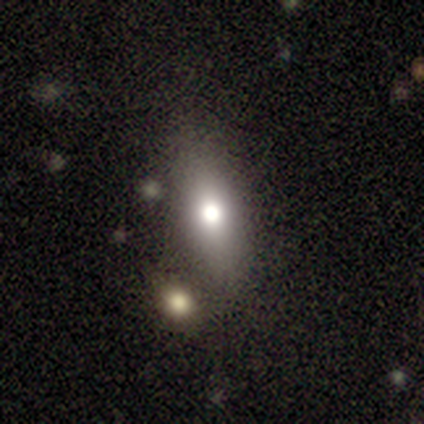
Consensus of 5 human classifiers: This is clearly a smooth galaxy (80%). How rounded: likely in between (75%). Merging: possibly none (50%, tied with minor disturbance).